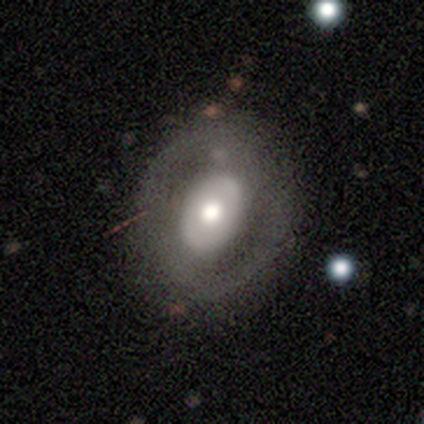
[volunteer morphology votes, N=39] A featured or disk galaxy (56%) with no bar (67%), no spiral arms (76%) and a large central bulge (48%). Merging: none (80%).